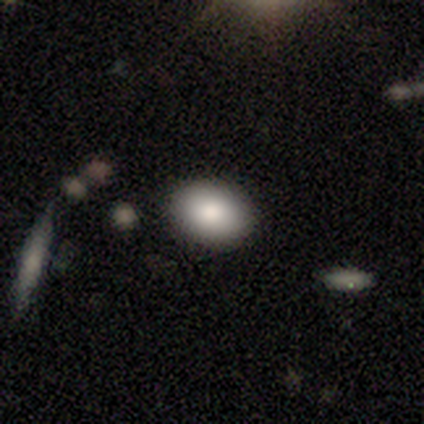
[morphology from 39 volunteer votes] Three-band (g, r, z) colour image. It shows a smooth galaxy with no disk features (85%) that is in between round and cigar-shaped (55%). Merging: none (86%).